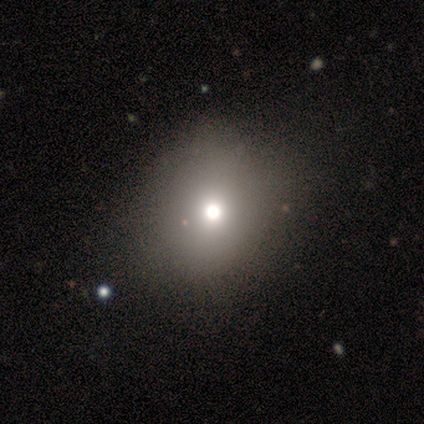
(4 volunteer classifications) A smooth galaxy with no disk features (75%) that is round (67%).

Vote fractions:
- Smooth or featured? smooth: 75% / star or artifact: 25% / featured or disk: 0%
- How rounded? round: 67% / in between: 33% / cigar-shaped: 0%
- Merging? none: 100% / minor disturbance: 0% / major disturbance: 0% / merger: 0%